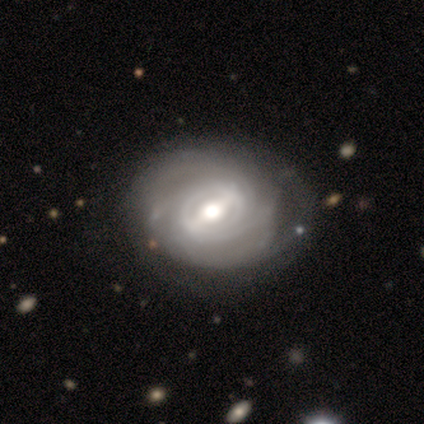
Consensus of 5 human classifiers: Q: Smooth or featured?
A: featured or disk (80%); runner-up: star or artifact (20%)
Q: Edge-on disk?
A: no (75%); runner-up: yes (25%)
Q: Bar?
A: strong (67%); runner-up: weak (33%)
Q: Spiral arms?
A: yes (100%)
Q: Spiral winding?
A: tight (67%); runner-up: medium (33%)
Q: Spiral arm count?
A: 2 (33%); tied with: 4 (33%); can't tell (33%)
Q: Bulge size?
A: moderate (100%)
Q: Merging?
A: none (100%)